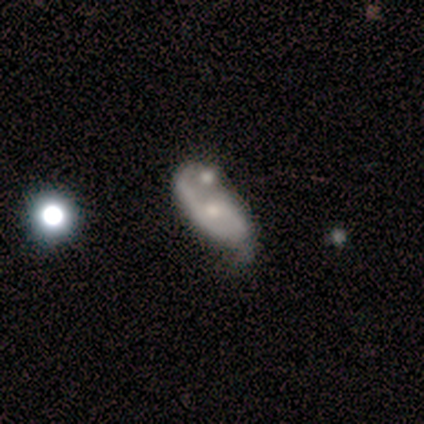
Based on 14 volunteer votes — Smooth or featured? 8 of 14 (57%) said featured or disk. Edge-on disk? 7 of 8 (88%) said no. Bar? 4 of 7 (57%) said no. Spiral arms? 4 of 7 (57%) said yes. Spiral winding? 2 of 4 (50%) said tight. Spiral arm count? 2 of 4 (50%, tied with 2) said 1. Bulge size? 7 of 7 (100%) said small. Merging? 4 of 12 (33%, tied with merger) said none.